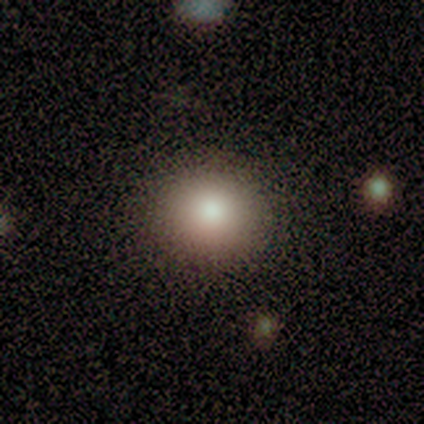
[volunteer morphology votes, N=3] smooth-or-featured: smooth: 67% | star or artifact: 33% | featured or disk: 0%
  how-rounded: round: 100% | in between: 0% | cigar-shaped: 0%
  merging: none: 100% | minor disturbance: 0% | major disturbance: 0% | merger: 0%